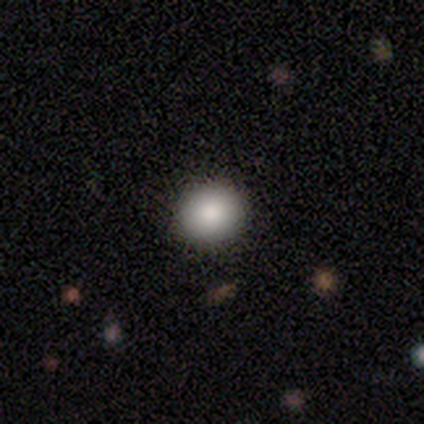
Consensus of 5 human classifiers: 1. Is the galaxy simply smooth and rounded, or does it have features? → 100% smooth, 0% featured or disk, 0% star or artifact.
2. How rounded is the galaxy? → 80% round, 20% in between, 0% cigar-shaped.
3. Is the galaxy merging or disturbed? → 100% none, 0% minor disturbance, 0% major disturbance, 0% merger.